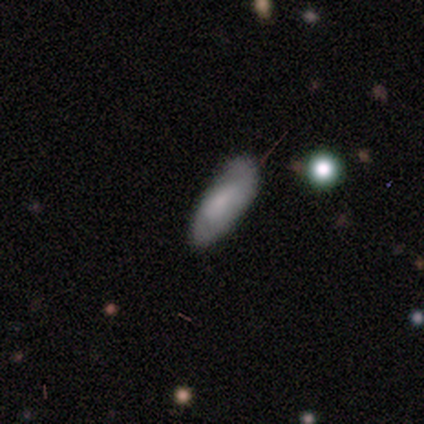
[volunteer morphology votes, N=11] Smooth or featured: smooth — 64% (featured or disk — 27%)
How rounded: in between — 71% (round — 14%)
Merging: none — 60% (minor disturbance — 30%)